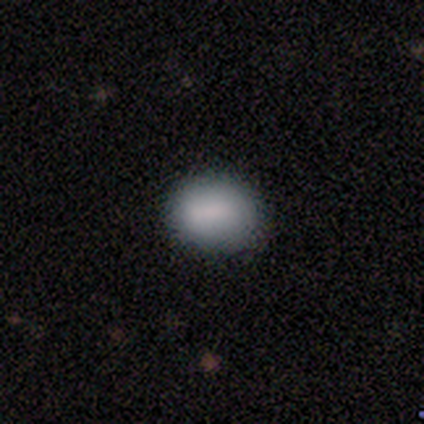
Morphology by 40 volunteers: A smooth galaxy with no disk features (88%) that is in between round and cigar-shaped (57%).

Vote fractions:
- Smooth or featured? smooth: 88% / star or artifact: 10% / featured or disk: 2%
- How rounded? in between: 57% / round: 43% / cigar-shaped: 0%
- Merging? none: 86% / minor disturbance: 14% / major disturbance: 0% / merger: 0%